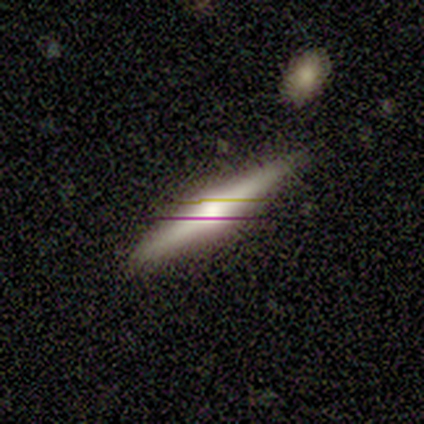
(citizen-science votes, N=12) Smooth or featured?
  - featured or disk: 67% *
  - smooth: 33%
  - star or artifact: 0%
Edge-on disk?
  - yes: 100% *
  - no: 0%
Edge-on bulge?
  - rounded: 88% *
  - boxy: 12%
  - none: 0%
Merging?
  - none: 92% *
  - minor disturbance: 8%
  - major disturbance: 0%
  - merger: 0%